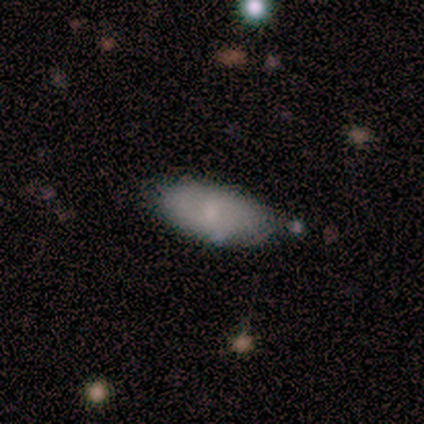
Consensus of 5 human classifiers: Smooth or featured? smooth (100%)
How rounded? in between (80%)
Merging? none (80%)